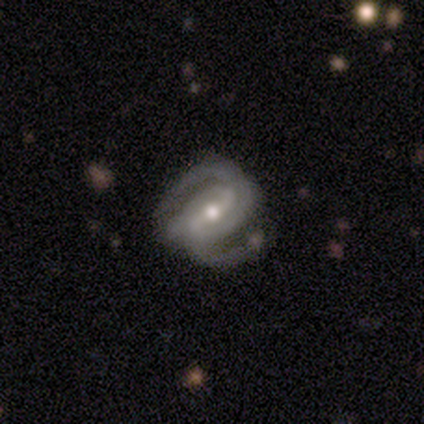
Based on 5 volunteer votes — smooth-or-featured: featured or disk: 100% | smooth: 0% | star or artifact: 0%
  disk-edge-on: no: 100% | yes: 0%
    bar: strong: 80% | weak: 20% | no: 0%
    has-spiral-arms: yes: 100% | no: 0%
      spiral-winding: medium: 60% | tight: 40% | loose: 0%
      spiral-arm-count: 2: 100% | 1: 0% | 3: 0% | 4: 0% | more than 4: 0% | can't tell: 0%
    bulge-size: small: 60% | large: 20% | moderate: 20% | dominant: 0% | none: 0%
  merging: none: 60% | minor disturbance: 40% | major disturbance: 0% | merger: 0%